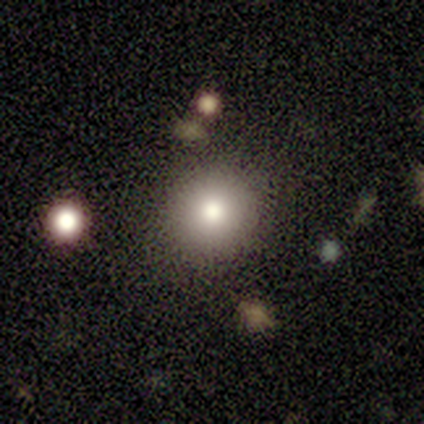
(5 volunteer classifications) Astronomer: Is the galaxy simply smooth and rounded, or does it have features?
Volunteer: smooth — 80%.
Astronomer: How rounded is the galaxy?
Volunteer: round — 100%.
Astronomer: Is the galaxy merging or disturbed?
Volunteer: none — 100%.